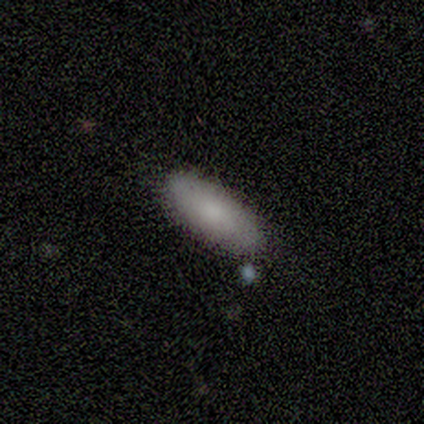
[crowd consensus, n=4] smooth 100%, featured or disk 0%, star or artifact 0%. Down the decision tree: how rounded — in between (100%); merging — none (100%).